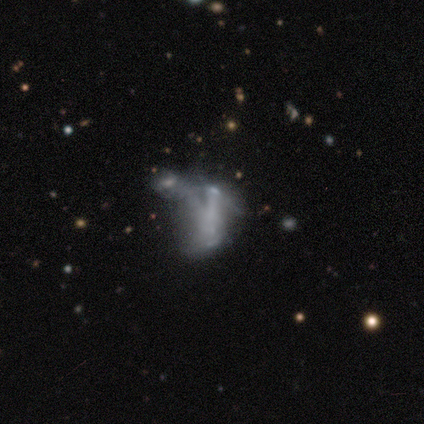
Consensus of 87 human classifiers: featured or disk 53%, smooth 31%, star or artifact 16%. Down the decision tree: edge-on disk — no (98%); bar — no (89%); spiral arms — no (96%); bulge size — none (82%); merging — merger (40%).